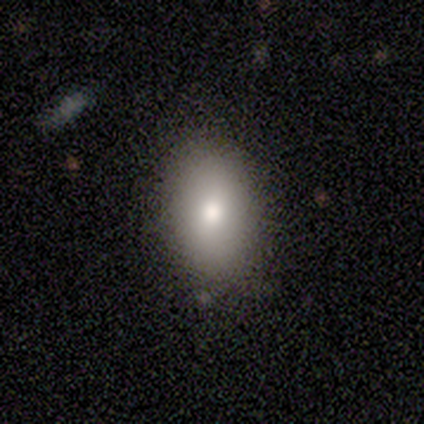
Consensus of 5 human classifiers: Morphology: type=smooth (80%); roundness=in between (100%); merging=none (75%).